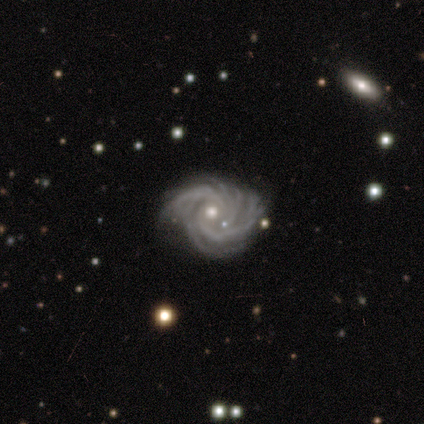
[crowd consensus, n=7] Morphology: type=featured or disk (86%); edge-on=no (100%); bar=no (50%); spiral arms=yes (100%); winding=tight (83%); arm count=4 (50%); bulge=small (100%); merging=none (83%).